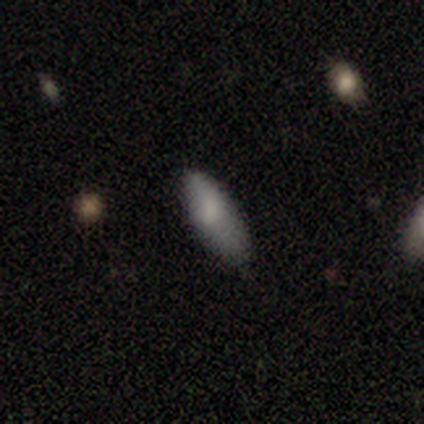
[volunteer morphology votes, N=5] Smooth or featured? smooth (100%)
How rounded? in between (80%)
Merging? minor disturbance (60%)